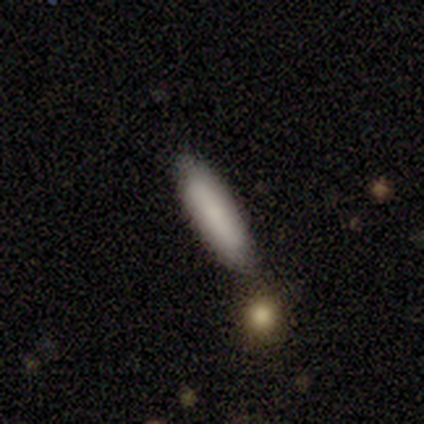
smooth_or_featured: smooth (p=0.75) [alt: featured or disk p=0.25]
how_rounded: in between (p=0.67) [alt: cigar-shaped p=0.33]
merging: none (p=0.75) [alt: merger p=0.25]